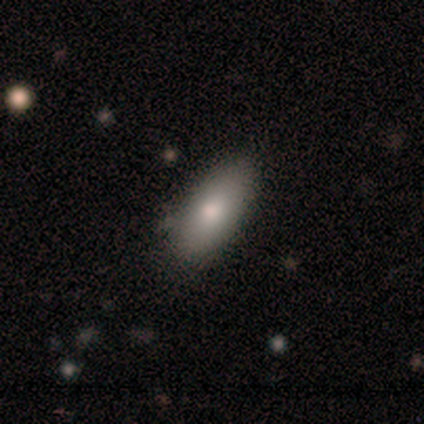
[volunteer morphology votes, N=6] Q: Smooth or featured?
A: smooth (83%); runner-up: featured or disk (17%)
Q: How rounded?
A: in between (100%)
Q: Merging?
A: none (67%); runner-up: minor disturbance (33%)